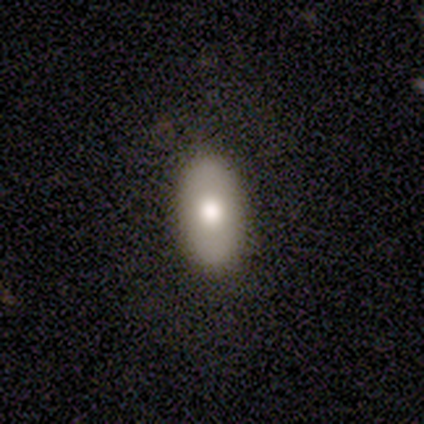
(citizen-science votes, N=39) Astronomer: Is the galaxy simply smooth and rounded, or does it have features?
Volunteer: smooth — 67%.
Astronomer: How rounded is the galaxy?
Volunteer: in between — 88%.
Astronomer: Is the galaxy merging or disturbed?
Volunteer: none — 91%.